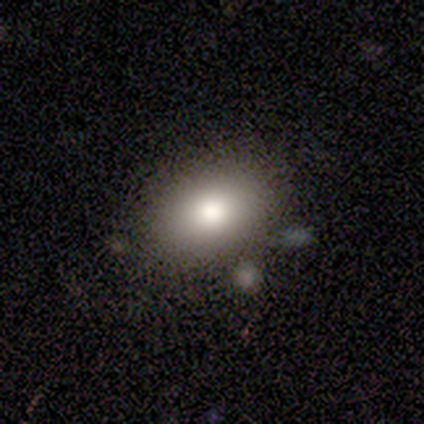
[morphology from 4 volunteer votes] type=smooth (50%, tied with star or artifact); roundness=round (50%, tied with in between); merging=none (50%, tied with merger).